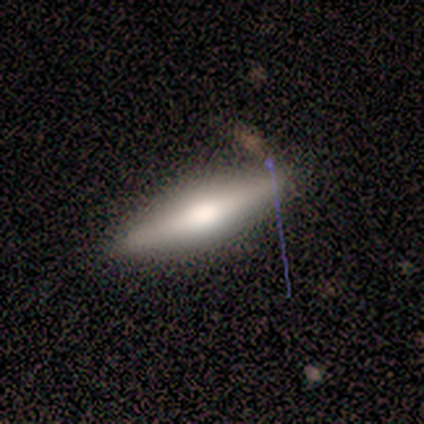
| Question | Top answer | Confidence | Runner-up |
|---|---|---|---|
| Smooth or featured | featured or disk | 75% | smooth (25%) |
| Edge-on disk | yes | 100% | — |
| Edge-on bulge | rounded | 100% | — |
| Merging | none | 75% | minor disturbance (25%) |